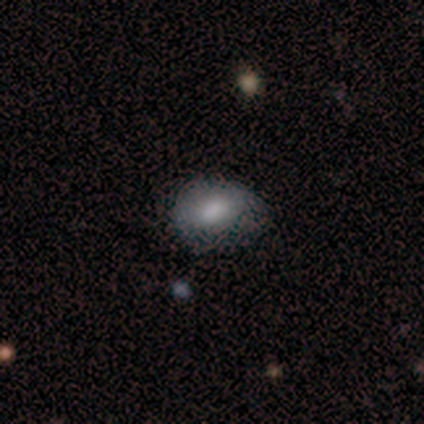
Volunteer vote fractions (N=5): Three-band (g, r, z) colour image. It shows a smooth galaxy with no disk features (60%) that is in between round and cigar-shaped (100%). Merging: minor disturbance (75%).